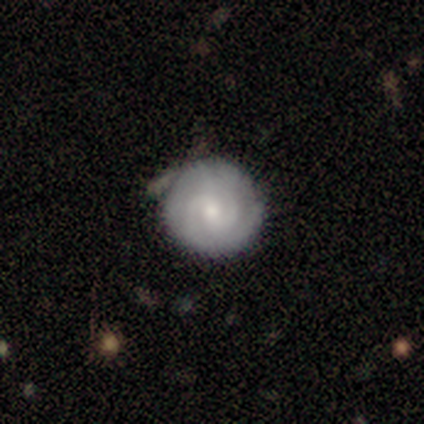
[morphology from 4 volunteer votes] type=featured or disk (100%); edge-on=no (100%); bar=no (75%); spiral arms=yes (100%); winding=tight (75%); arm count=2 (100%); bulge=moderate (50%, tied with small); merging=none (75%).